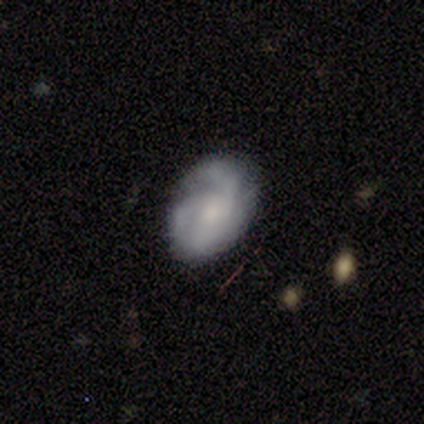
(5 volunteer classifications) A featured or disk galaxy (80%) with no bar (75%), 2 (50%) tight (50%, tied with medium) spiral arms (100%) and a moderate central bulge (75%). Merging: none (100%).